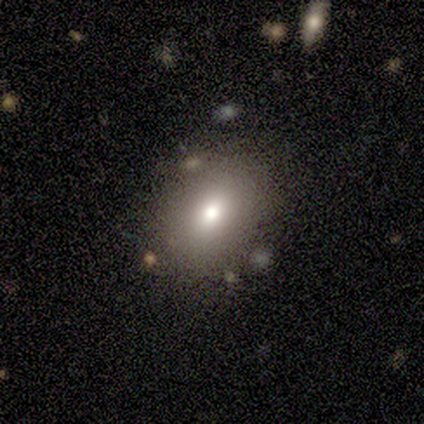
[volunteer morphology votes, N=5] Smooth or featured? smooth (40%, tied with featured or disk)
How rounded? round (50%, tied with in between)
Merging? none (100%)